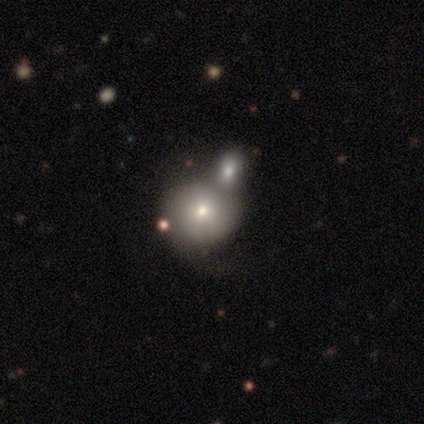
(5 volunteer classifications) smooth_or_featured: featured or disk (p=0.60) [alt: smooth p=0.40]
disk_edge_on: yes (p=0.67) [alt: no p=0.33]
edge_on_bulge: rounded (p=1.00)
merging: minor disturbance (p=0.40) [tied with: merger p=0.40]